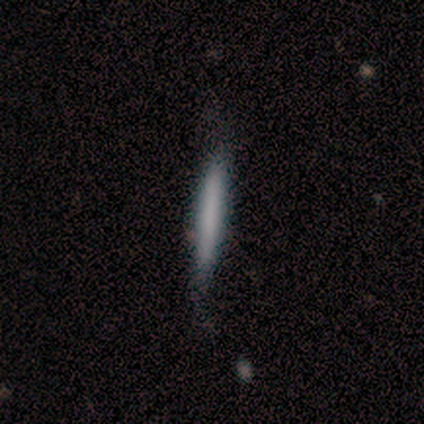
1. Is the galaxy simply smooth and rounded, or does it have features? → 100% smooth, 0% featured or disk, 0% star or artifact.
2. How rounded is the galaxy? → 100% cigar-shaped, 0% round, 0% in between.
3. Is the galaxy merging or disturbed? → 40% none (tied), 40% minor disturbance (tied), 20% merger, 0% major disturbance.